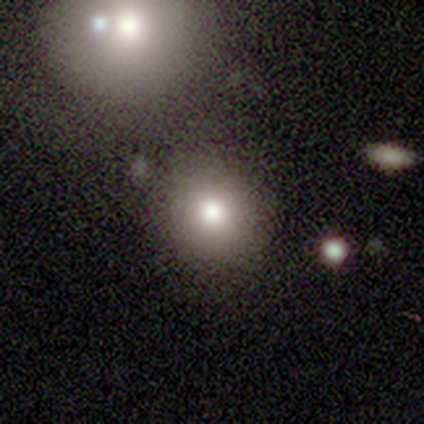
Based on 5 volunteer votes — smooth_or_featured: smooth (p=0.80) [alt: star or artifact p=0.20]
how_rounded: round (p=0.50) [tied with: in between p=0.50]
merging: none (p=1.00)